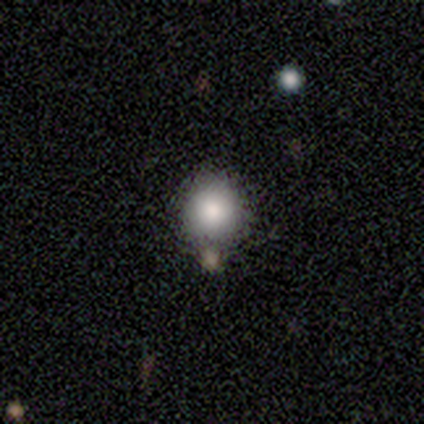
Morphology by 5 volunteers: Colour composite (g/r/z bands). It shows a smooth galaxy with no disk features (100%) that is round (80%). Merging: none (40%, tied with minor disturbance).